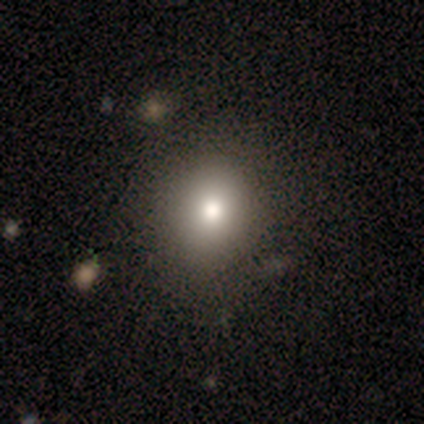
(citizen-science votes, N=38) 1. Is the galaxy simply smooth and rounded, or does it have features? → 79% smooth, 16% featured or disk, 5% star or artifact.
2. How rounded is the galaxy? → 63% round, 37% in between, 0% cigar-shaped.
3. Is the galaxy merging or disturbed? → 53% none, 8% minor disturbance, 6% merger, 3% major disturbance.